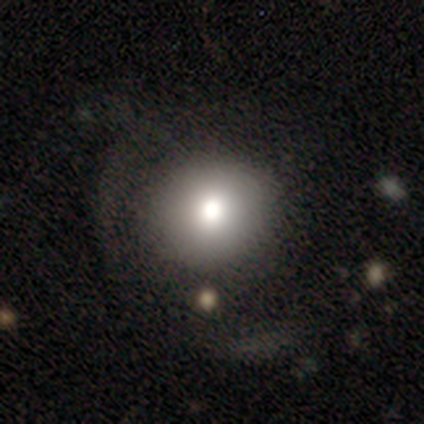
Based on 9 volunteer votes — This is possibly a smooth galaxy (56%). How rounded: clearly round (100%). Merging: possibly none (50%).